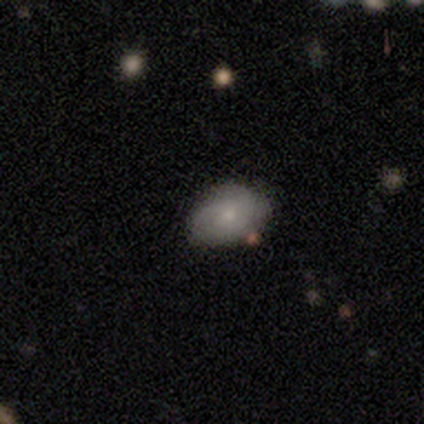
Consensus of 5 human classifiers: Smooth or featured: smooth — 80% (featured or disk — 20%)
How rounded: in between — 75% (round — 25%)
Merging: none — 80% (minor disturbance — 20%)